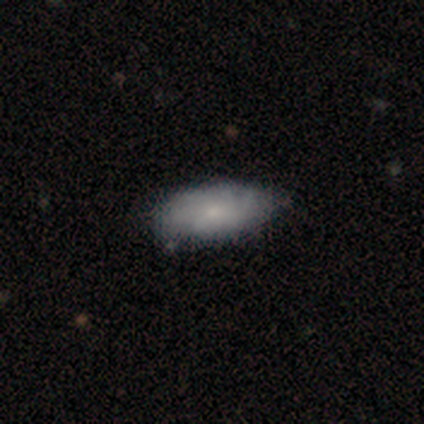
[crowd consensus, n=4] Smooth or featured? 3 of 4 (75%) said smooth. How rounded? 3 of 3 (100%) said in between. Merging? 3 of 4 (75%) said none.